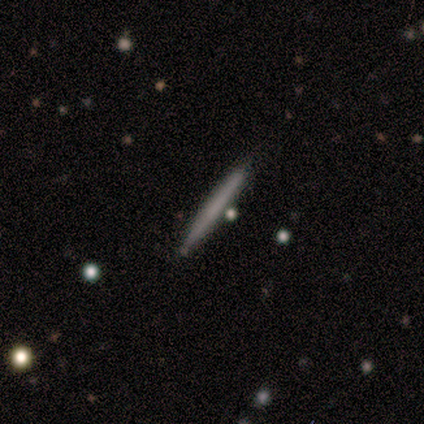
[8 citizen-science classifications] smooth-or-featured: smooth: 100% | featured or disk: 0% | star or artifact: 0%
  how-rounded: cigar-shaped: 100% | round: 0% | in between: 0%
  merging: none: 100% | minor disturbance: 0% | major disturbance: 0% | merger: 0%